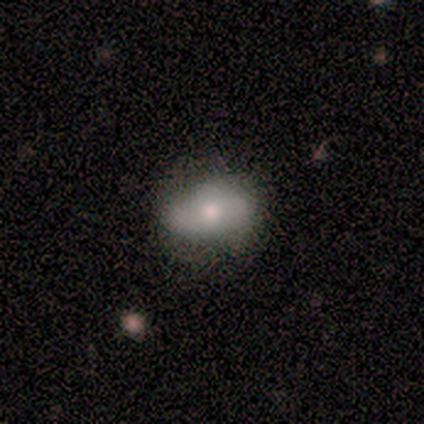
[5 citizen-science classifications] This is likely a smooth galaxy (60%). How rounded: clearly in between (100%). Merging: likely none (60%).